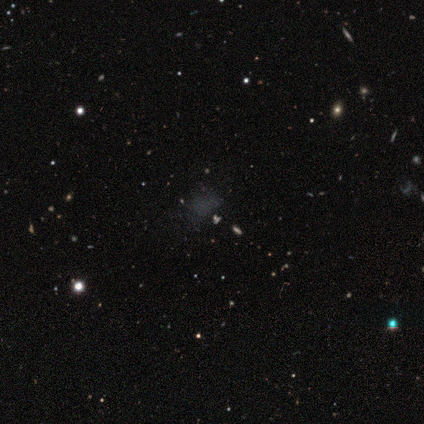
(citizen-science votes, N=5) This appears to be a smooth galaxy with no disk features (40%, tied with featured or disk) that is round (50%, tied with in between). Merging: none (75%).